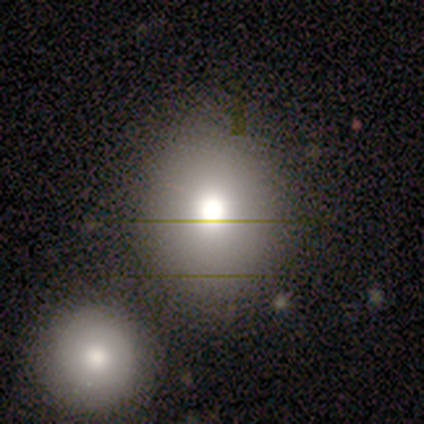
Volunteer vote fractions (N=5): smooth-or-featured: smooth: 80% | star or artifact: 20% | featured or disk: 0%
  how-rounded: round: 75% | in between: 25% | cigar-shaped: 0%
  merging: none: 100% | minor disturbance: 0% | major disturbance: 0% | merger: 0%